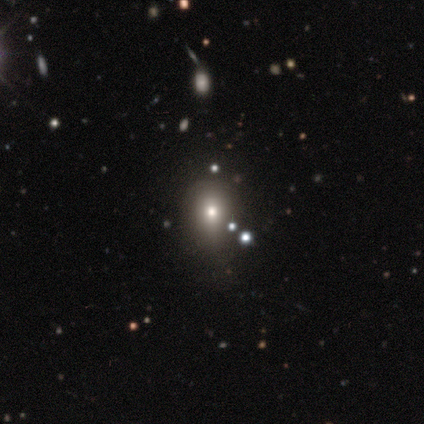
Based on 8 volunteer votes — A star or artifact, not a galaxy (50%).